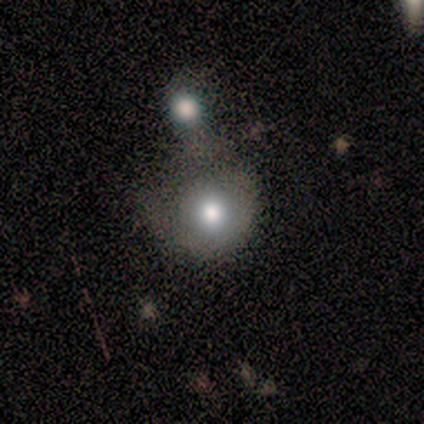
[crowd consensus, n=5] smooth-or-featured: smooth: 80% | star or artifact: 20% | featured or disk: 0%
  how-rounded: round: 75% | in between: 25% | cigar-shaped: 0%
  merging: none: 50% (tied) | merger: 50% (tied) | minor disturbance: 0% | major disturbance: 0%